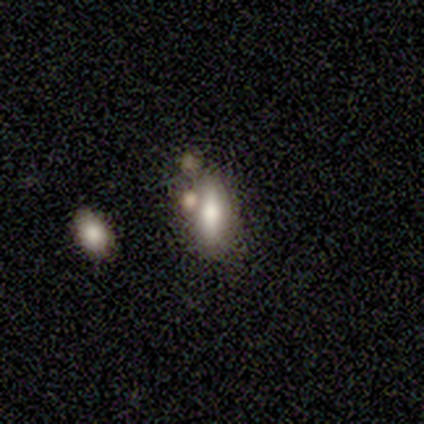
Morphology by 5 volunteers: Smooth or featured?
  - featured or disk: 60% *
  - smooth: 20%
  - star or artifact: 20%
Edge-on disk?
  - no: 67% *
  - yes: 33%
Bar?
  - no: 100% *
  - strong: 0%
  - weak: 0%
Spiral arms?
  - no: 100% *
  - yes: 0%
Bulge size?
  - large: 100% *
  - dominant: 0%
  - moderate: 0%
  - small: 0%
  - none: 0%
Merging?
  - none: 25% * (tied)
  - minor disturbance: 25% * (tied)
  - major disturbance: 25% * (tied)
  - merger: 25% * (tied)